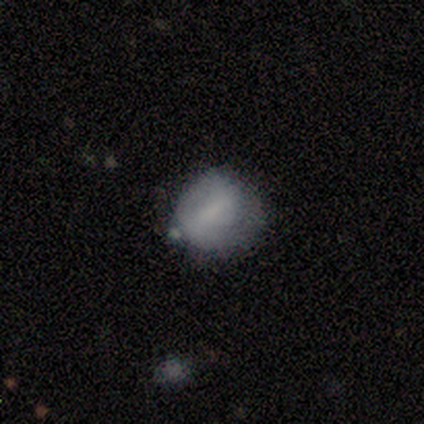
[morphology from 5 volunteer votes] smooth 80%, featured or disk 20%, star or artifact 0%. Down the decision tree: how rounded — round (100%); merging — minor disturbance (40%).